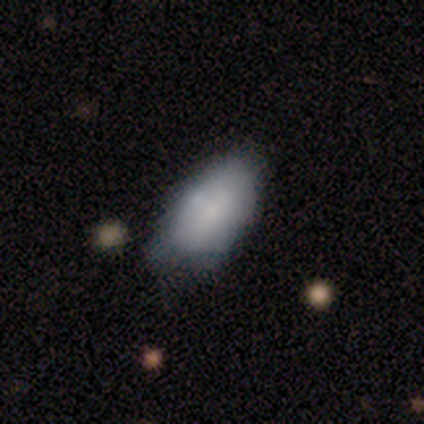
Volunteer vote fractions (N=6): Morphology: type=smooth (83%); roundness=in between (100%); merging=none (67%).